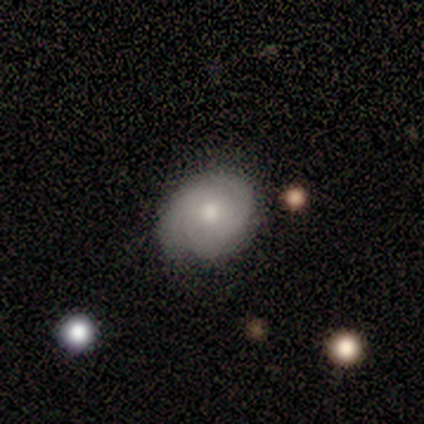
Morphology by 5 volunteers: A featured or disk galaxy (80%) with no bar (100%), 2 (50%) medium (75%) spiral arms (100%) and a moderate central bulge (100%).

Vote fractions:
- Smooth or featured? featured or disk: 80% / star or artifact: 20% / smooth: 0%
- Edge-on disk? no: 100% / yes: 0%
- Bar? no: 100% / strong: 0% / weak: 0%
- Spiral arms? yes: 100% / no: 0%
- Spiral winding? medium: 75% / tight: 25% / loose: 0%
- Spiral arm count? 2: 50% / 3: 25% / can't tell: 25% / 1: 0% / 4: 0% / more than 4: 0%
- Bulge size? moderate: 100% / dominant: 0% / large: 0% / small: 0% / none: 0%
- Merging? none: 100% / minor disturbance: 0% / major disturbance: 0% / merger: 0%